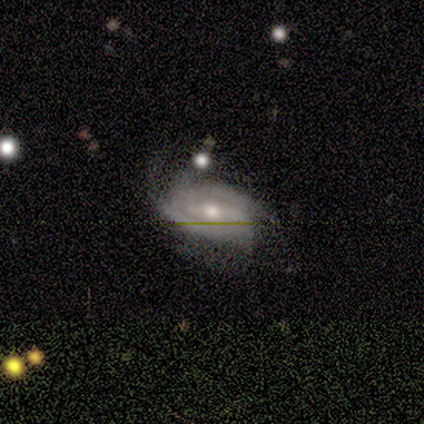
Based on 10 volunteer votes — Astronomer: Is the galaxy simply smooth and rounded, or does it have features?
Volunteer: featured or disk — 90%.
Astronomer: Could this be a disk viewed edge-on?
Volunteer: no — 100%.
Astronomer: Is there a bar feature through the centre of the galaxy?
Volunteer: no — 44% (runner-up: weak, 33%).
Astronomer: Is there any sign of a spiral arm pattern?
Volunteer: yes — 100%.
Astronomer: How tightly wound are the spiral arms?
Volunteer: medium — 56% (runner-up: tight, 44%).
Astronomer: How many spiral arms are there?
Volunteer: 2 — 33%, tied with 4 at 33%.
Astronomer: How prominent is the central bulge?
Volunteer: moderate — 67%.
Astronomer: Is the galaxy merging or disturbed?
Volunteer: none — 78%.